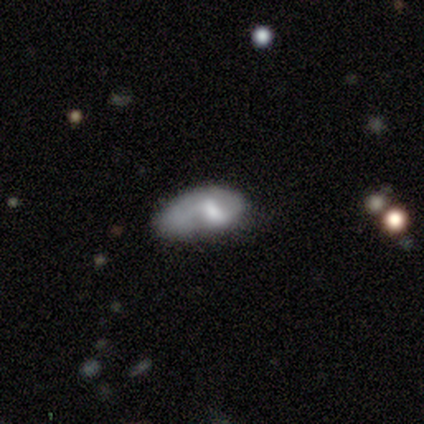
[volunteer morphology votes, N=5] Q: Smooth or featured?
A: smooth (60%); runner-up: featured or disk (40%)
Q: How rounded?
A: in between (100%)
Q: Merging?
A: minor disturbance (60%); runner-up: none (20%)